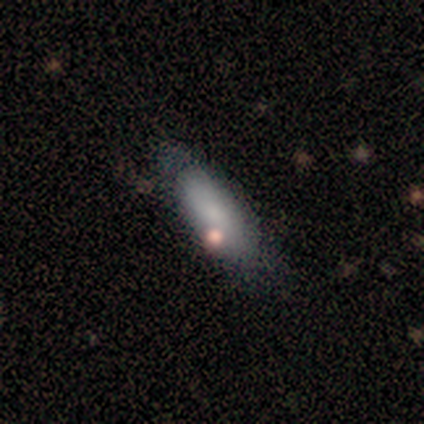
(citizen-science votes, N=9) This appears to be a smooth galaxy with no disk features (100%) that is in between round and cigar-shaped (67%). Merging: none (67%).